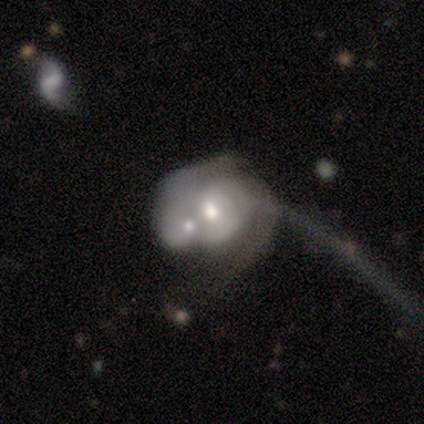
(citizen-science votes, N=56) Smooth or featured?
  - featured or disk: 73% *
  - smooth: 18%
  - star or artifact: 9%
Edge-on disk?
  - no: 100% *
  - yes: 0%
Bar?
  - no: 71% *
  - weak: 24%
  - strong: 5%
Spiral arms?
  - yes: 71% *
  - no: 29%
Spiral winding?
  - tight: 66% *
  - medium: 17%
  - loose: 17%
Spiral arm count?
  - can't tell: 52% *
  - 2: 38%
  - 3: 7%
  - 1: 3%
  - 4: 0%
  - more than 4: 0%
Bulge size?
  - moderate: 83% *
  - large: 10%
  - small: 5%
  - dominant: 2%
  - none: 0%
Merging?
  - merger: 69% *
  - major disturbance: 24%
  - none: 8%
  - minor disturbance: 0%